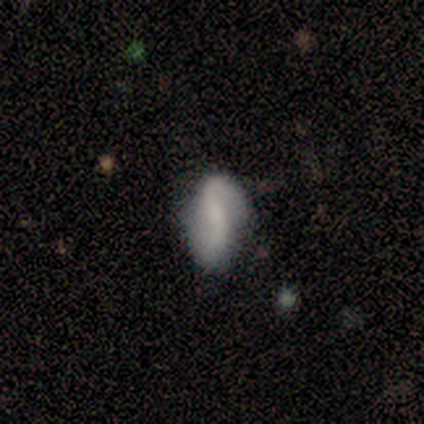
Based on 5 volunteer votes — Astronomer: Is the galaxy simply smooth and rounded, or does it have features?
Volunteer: featured or disk — 60% (runner-up: smooth, 40%).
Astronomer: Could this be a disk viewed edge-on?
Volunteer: no — 100%.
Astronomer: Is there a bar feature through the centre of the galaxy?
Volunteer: weak — 67%.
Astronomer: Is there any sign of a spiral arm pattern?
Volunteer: yes — 100%.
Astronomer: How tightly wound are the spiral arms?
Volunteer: loose — 67%.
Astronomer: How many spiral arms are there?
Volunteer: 1 — 33%, tied with 2 and can't tell at 33%.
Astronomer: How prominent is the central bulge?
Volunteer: none — 67%.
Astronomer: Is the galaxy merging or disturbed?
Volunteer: none — 80%.